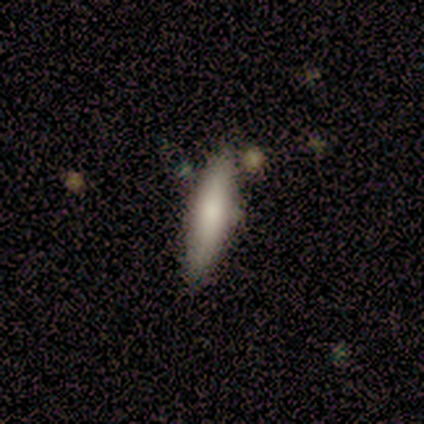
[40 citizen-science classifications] Morphology: type=smooth (70%); roundness=cigar-shaped (79%); merging=none (70%).